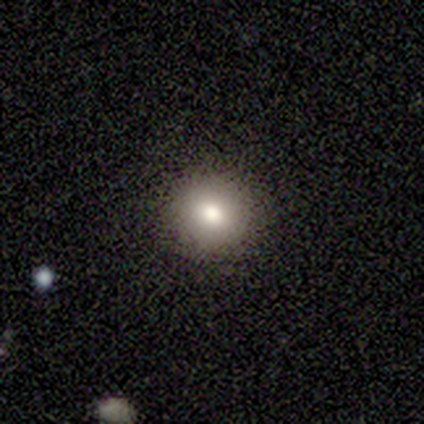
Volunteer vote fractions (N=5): Overall: smooth (80%). How rounded: round (100%). Merging: none (100%).